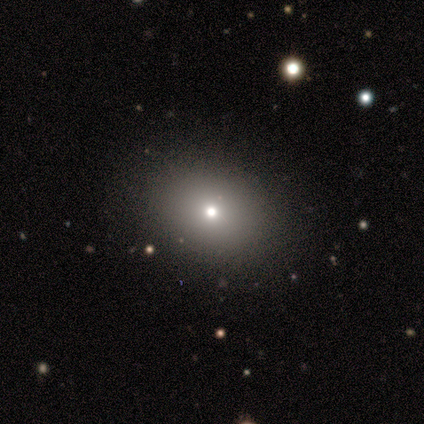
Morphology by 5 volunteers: Smooth or featured? 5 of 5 (100%) said smooth. How rounded? 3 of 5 (60%) said in between. Merging? 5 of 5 (100%) said none.